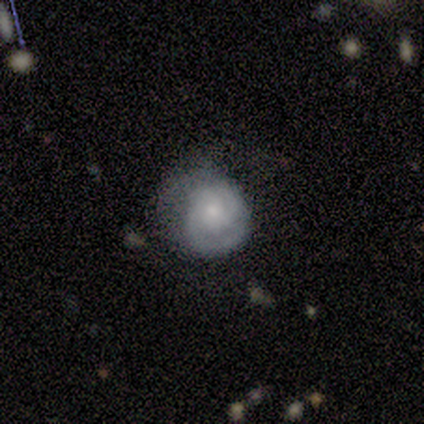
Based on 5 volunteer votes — Overall: smooth (40%, tied with featured or disk). How rounded: round (50%, tied with in between). Merging: minor disturbance (75%).